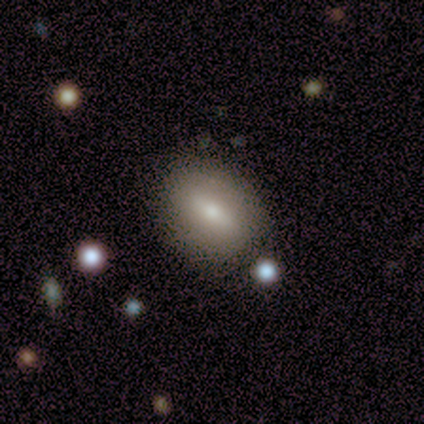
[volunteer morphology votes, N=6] Overall: smooth (83%). How rounded: in between (100%). Merging: none (67%; minor disturbance 33%).